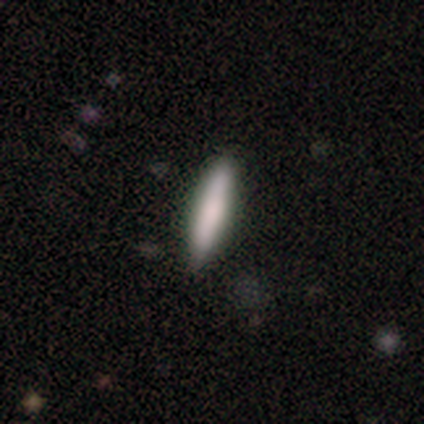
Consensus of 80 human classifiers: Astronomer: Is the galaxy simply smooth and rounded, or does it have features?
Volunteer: smooth — 79%.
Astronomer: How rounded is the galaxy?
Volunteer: cigar-shaped — 90%.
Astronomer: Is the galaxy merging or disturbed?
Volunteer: none — 44%.